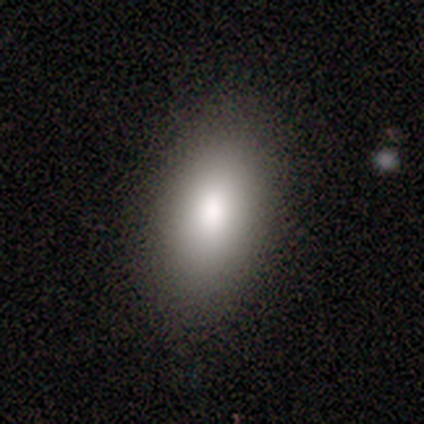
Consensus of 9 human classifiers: Smooth or featured? smooth (67%)
How rounded? in between (83%)
Merging? none (86%)